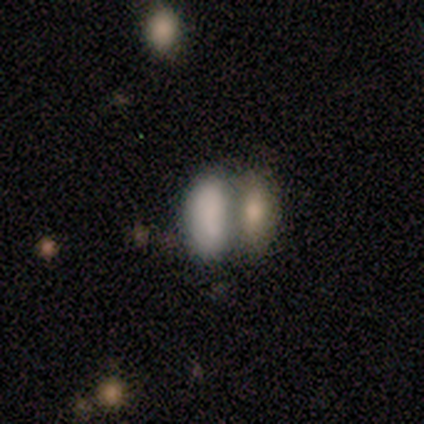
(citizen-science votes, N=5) smooth 80%, featured or disk 20%, star or artifact 0%. Down the decision tree: how rounded — in between (100%); merging — merger (80%).